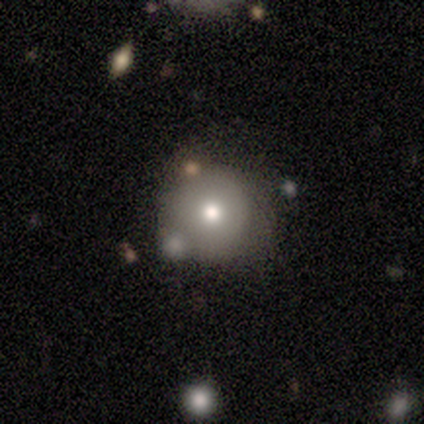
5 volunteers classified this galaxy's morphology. A smooth galaxy with no disk features (80%) that is round (100%). Merging: none (80%).